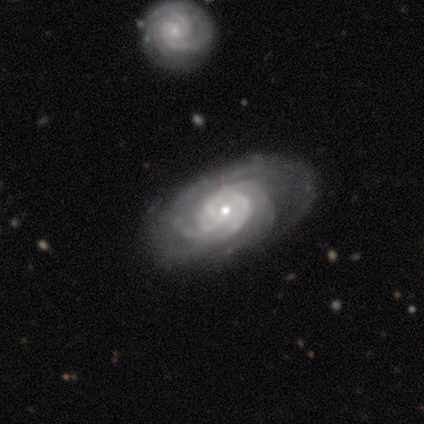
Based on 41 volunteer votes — A featured or disk galaxy (100%) with no bar (73%), 3 (40%) tight (65%) spiral arms (98%) and a small central bulge (59%). Merging: none (68%).